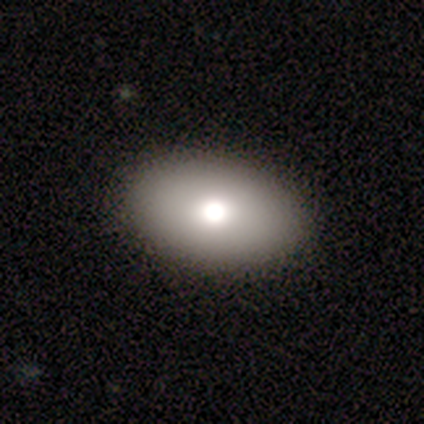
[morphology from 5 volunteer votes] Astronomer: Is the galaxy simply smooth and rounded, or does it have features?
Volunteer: smooth — 80%.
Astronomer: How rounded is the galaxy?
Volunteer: in between — 75%.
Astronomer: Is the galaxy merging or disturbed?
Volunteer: none — 75%.